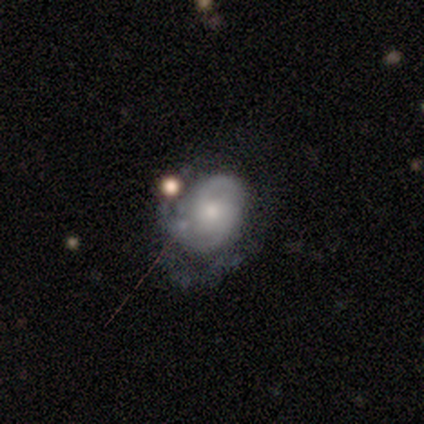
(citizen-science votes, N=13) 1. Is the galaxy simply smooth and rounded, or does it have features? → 54% featured or disk, 31% star or artifact, 15% smooth.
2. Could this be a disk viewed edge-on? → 100% no, 0% yes.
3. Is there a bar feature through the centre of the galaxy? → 86% no, 14% weak, 0% strong.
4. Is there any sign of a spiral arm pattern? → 100% yes, 0% no.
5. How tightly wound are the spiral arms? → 57% tight, 43% medium, 0% loose.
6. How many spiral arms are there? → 43% 1, 29% 2, 29% can't tell, 0% 3, 0% 4, 0% more than 4.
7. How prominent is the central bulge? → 86% moderate, 14% none, 0% dominant, 0% large, 0% small.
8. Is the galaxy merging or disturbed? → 44% none, 33% major disturbance, 11% minor disturbance, 11% merger.